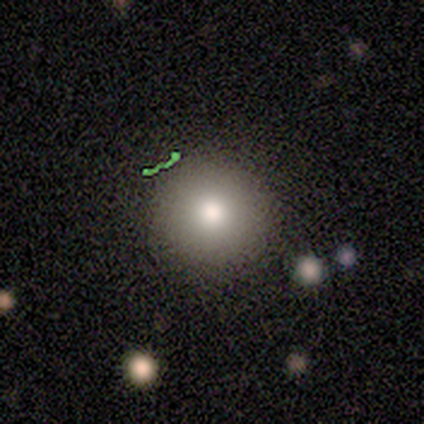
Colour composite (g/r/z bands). It shows a smooth galaxy with no disk features (100%) that is round (100%). Merging: none (100%).